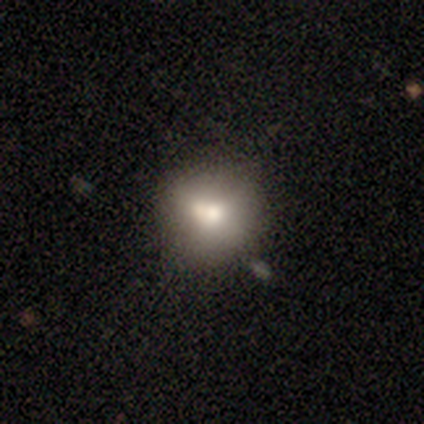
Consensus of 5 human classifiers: Smooth or featured? 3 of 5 (60%) said smooth. How rounded? 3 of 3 (100%) said round. Merging? 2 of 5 (40%, tied with minor disturbance) said none.